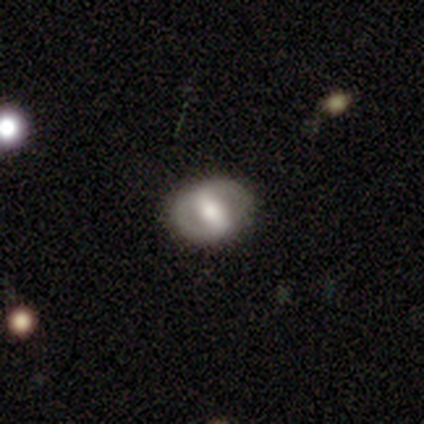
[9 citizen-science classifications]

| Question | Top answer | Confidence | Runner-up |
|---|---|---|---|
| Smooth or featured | smooth | 56% | featured or disk (33%) |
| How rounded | in between | 60% | round (40%) |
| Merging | none | 75% | minor disturbance (25%) |